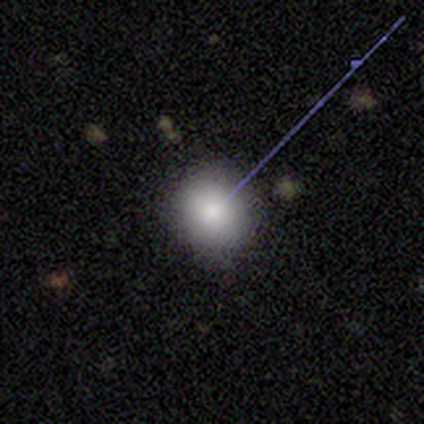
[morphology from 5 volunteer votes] Smooth or featured: smooth — 80% (star or artifact — 20%)
How rounded: round — 100%
Merging: none — 100%